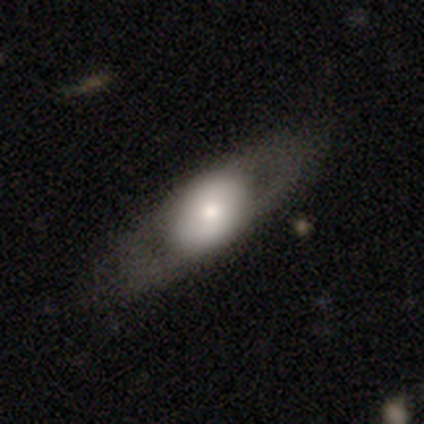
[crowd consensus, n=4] smooth-or-featured: smooth: 50% (tied) | featured or disk: 50% (tied) | star or artifact: 0%
  how-rounded: in between: 100% | round: 0% | cigar-shaped: 0%
  merging: none: 75% | minor disturbance: 25% | major disturbance: 0% | merger: 0%